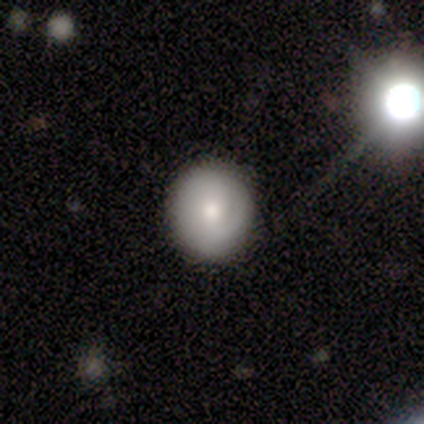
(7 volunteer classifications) Smooth or featured? 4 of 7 (57%) said smooth. How rounded? 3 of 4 (75%) said round. Merging? 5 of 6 (83%) said none.